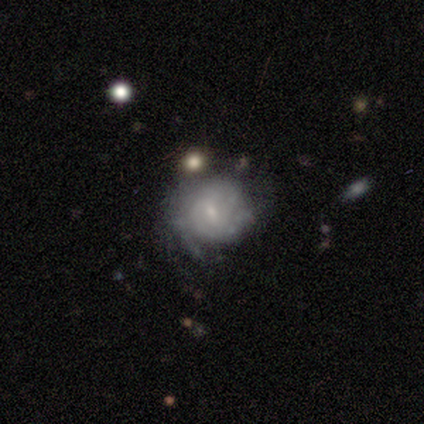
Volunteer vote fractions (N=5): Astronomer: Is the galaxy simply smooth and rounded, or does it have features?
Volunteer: featured or disk — 80%.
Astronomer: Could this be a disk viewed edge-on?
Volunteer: no — 100%.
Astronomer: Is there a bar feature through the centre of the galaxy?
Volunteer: no — 100%.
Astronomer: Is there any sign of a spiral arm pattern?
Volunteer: yes — 50%, tied with no at 50%.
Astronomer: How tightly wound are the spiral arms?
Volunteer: tight — 50%, tied with loose at 50%.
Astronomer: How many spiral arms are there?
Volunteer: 3 — 50%, tied with can't tell at 50%.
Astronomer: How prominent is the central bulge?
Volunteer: small — 50%.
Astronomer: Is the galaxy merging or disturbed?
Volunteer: none — 75%.